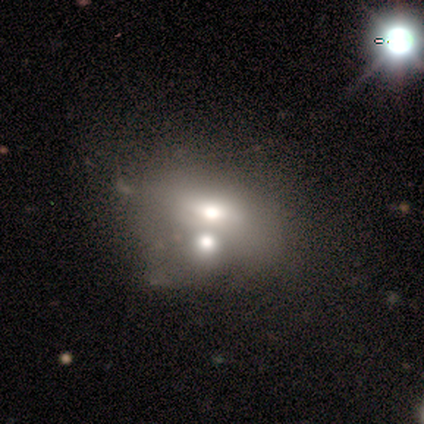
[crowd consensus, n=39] smooth_or_featured: smooth (p=0.67) [alt: featured or disk p=0.26]
how_rounded: in between (p=0.92) [alt: round p=0.08]
merging: merger (p=0.56) [alt: minor disturbance p=0.19]